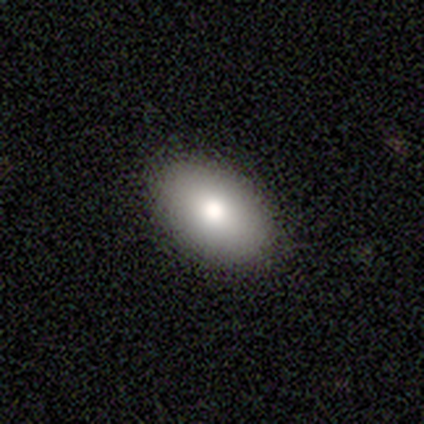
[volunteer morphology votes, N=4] Smooth or featured? 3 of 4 (75%) said smooth. How rounded? 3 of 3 (100%) said in between. Merging? 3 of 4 (75%) said none.